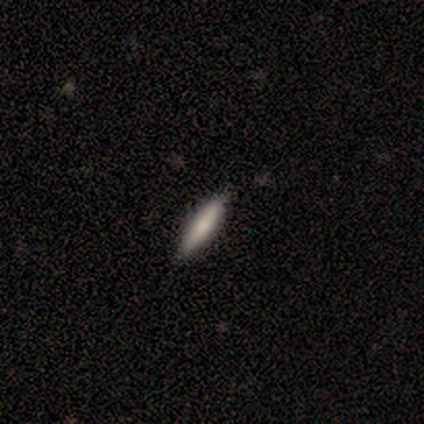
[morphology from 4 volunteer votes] smooth 100%, featured or disk 0%, star or artifact 0%. Down the decision tree: how rounded — cigar-shaped (75%); merging — none (100%).